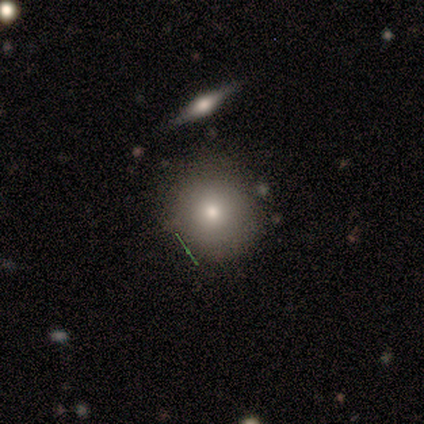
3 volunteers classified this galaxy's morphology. smooth-or-featured: smooth: 100% | featured or disk: 0% | star or artifact: 0%
  how-rounded: round: 67% | in between: 33% | cigar-shaped: 0%
  merging: none: 67% | minor disturbance: 33% | major disturbance: 0% | merger: 0%